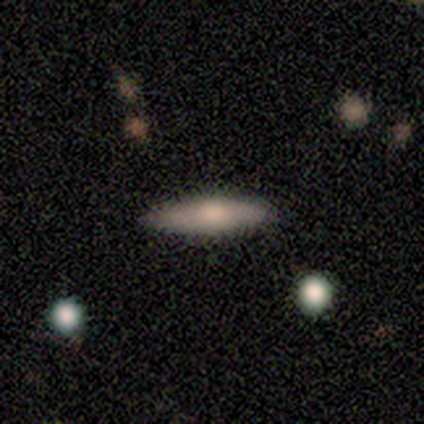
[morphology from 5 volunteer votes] smooth-or-featured: smooth: 80% | star or artifact: 20% | featured or disk: 0%
  how-rounded: cigar-shaped: 100% | round: 0% | in between: 0%
  merging: none: 75% | minor disturbance: 25% | major disturbance: 0% | merger: 0%